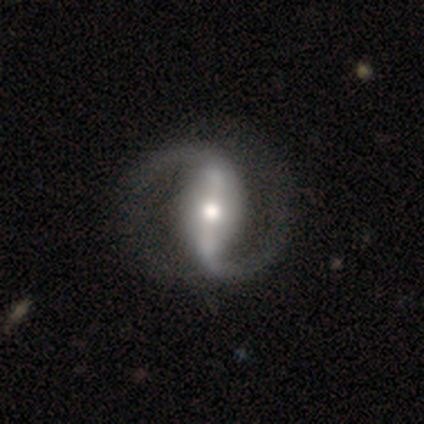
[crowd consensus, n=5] Smooth or featured?
  - featured or disk: 100% *
  - smooth: 0%
  - star or artifact: 0%
Edge-on disk?
  - no: 80% *
  - yes: 20%
Bar?
  - strong: 100% *
  - weak: 0%
  - no: 0%
Spiral arms?
  - yes: 100% *
  - no: 0%
Spiral winding?
  - medium: 50% *
  - tight: 25%
  - loose: 25%
Spiral arm count?
  - 2: 100% *
  - 1: 0%
  - 3: 0%
  - 4: 0%
  - more than 4: 0%
  - can't tell: 0%
Bulge size?
  - moderate: 100% *
  - dominant: 0%
  - large: 0%
  - small: 0%
  - none: 0%
Merging?
  - none: 100% *
  - minor disturbance: 0%
  - major disturbance: 0%
  - merger: 0%